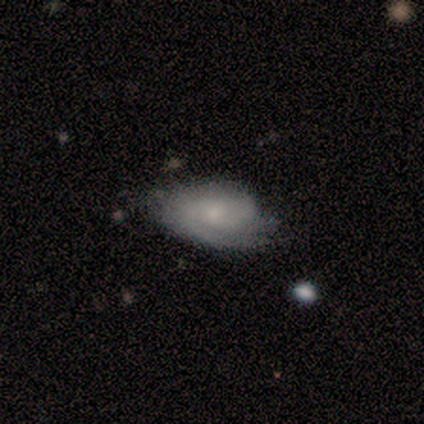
Smooth or featured: smooth — 60% (featured or disk — 40%)
How rounded: in between — 100%
Merging: none — 40% (tied with major disturbance — 40%)